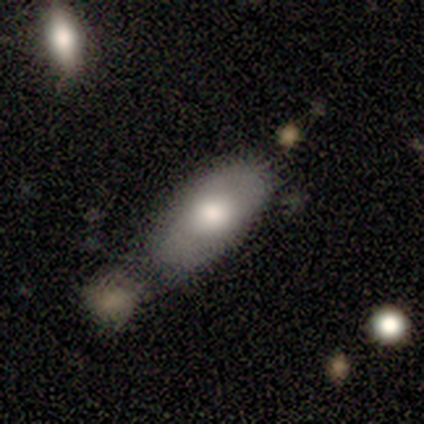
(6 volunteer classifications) Morphology: type=smooth (67%); roundness=in between (75%); merging=minor disturbance (40%, tied with merger).